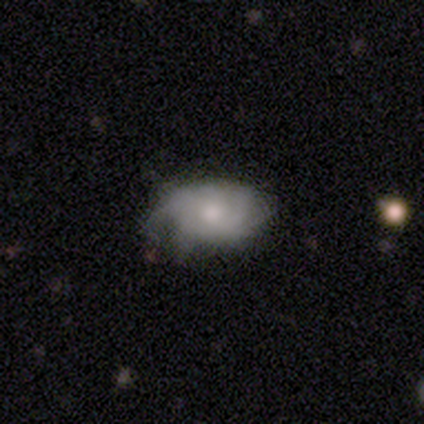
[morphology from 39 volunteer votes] This appears to be a featured or disk galaxy (62%) with no bar (86%), tight (56%) spiral arms (73%) and a moderate central bulge (45%). Merging: none (53%).